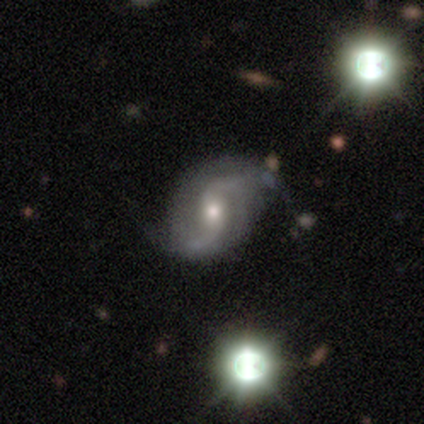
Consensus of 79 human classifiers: smooth-or-featured: featured or disk: 92% | smooth: 4% | star or artifact: 4%
  disk-edge-on: no: 99% | yes: 1%
    bar: weak: 53% | no: 38% | strong: 10%
    has-spiral-arms: yes: 99% | no: 1%
      spiral-winding: loose: 68% | medium: 27% | tight: 6%
      spiral-arm-count: 2: 92% | can't tell: 7% | 1: 1% | 3: 0% | 4: 0% | more than 4: 0%
    bulge-size: moderate: 62% | small: 31% | large: 6% | none: 1% | dominant: 0%
  merging: none: 42% | minor disturbance: 8% | major disturbance: 5% | merger: 1%